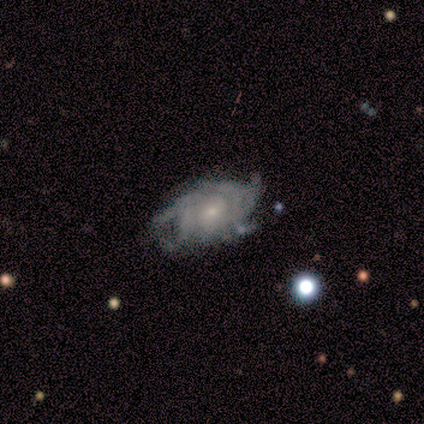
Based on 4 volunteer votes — A featured or disk galaxy (100%) with a weak bar (50%, tied with no), 4 (100%) tight (100%) spiral arms (50%, tied with no) and a small central bulge (75%).

Vote fractions:
- Smooth or featured? featured or disk: 100% / smooth: 0% / star or artifact: 0%
- Edge-on disk? no: 100% / yes: 0%
- Bar? weak: 50% (tied) / no: 50% (tied) / strong: 0%
- Spiral arms? yes: 50% (tied) / no: 50% (tied)
- Spiral winding? tight: 100% / medium: 0% / loose: 0%
- Spiral arm count? 4: 100% / 1: 0% / 2: 0% / 3: 0% / more than 4: 0% / can't tell: 0%
- Bulge size? small: 75% / moderate: 25% / dominant: 0% / large: 0% / none: 0%
- Merging? none: 50% (tied) / minor disturbance: 50% (tied) / major disturbance: 0% / merger: 0%